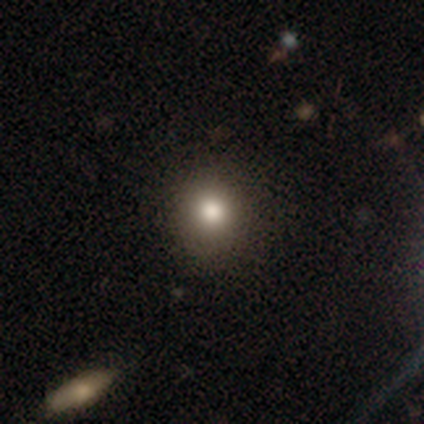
Q: Smooth or featured?
A: smooth (82%); runner-up: star or artifact (10%)
Q: How rounded?
A: round (92%); runner-up: in between (8%)
Q: Merging?
A: none (92%); runner-up: minor disturbance (7%)